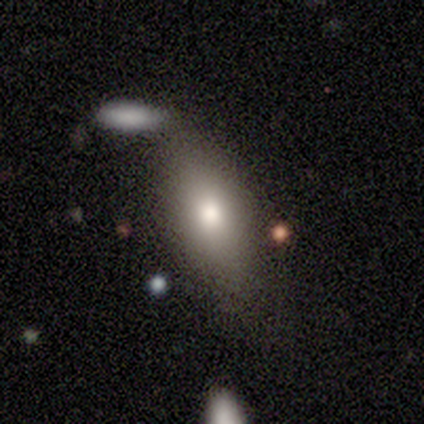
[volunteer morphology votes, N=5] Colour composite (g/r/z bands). It shows a smooth galaxy with no disk features (80%) that is in between round and cigar-shaped (75%). Merging: minor disturbance (60%).